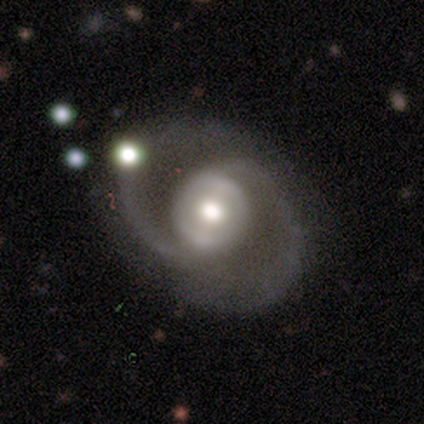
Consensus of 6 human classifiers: smooth-or-featured: featured or disk: 83% | smooth: 17% | star or artifact: 0%
  disk-edge-on: no: 100% | yes: 0%
    bar: strong: 40% (tied) | weak: 40% (tied) | no: 20%
    has-spiral-arms: yes: 100% | no: 0%
      spiral-winding: tight: 40% (tied) | medium: 40% (tied) | loose: 20%
      spiral-arm-count: 2: 100% | 1: 0% | 3: 0% | 4: 0% | more than 4: 0% | can't tell: 0%
    bulge-size: moderate: 60% | large: 40% | dominant: 0% | small: 0% | none: 0%
  merging: none: 67% | minor disturbance: 33% | major disturbance: 0% | merger: 0%